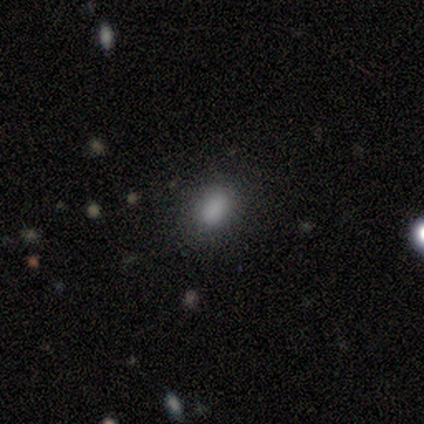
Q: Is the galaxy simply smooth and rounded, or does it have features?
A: smooth — 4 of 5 (80%).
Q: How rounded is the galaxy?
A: in between — 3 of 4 (75%).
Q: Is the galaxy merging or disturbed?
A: none — 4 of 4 (100%).